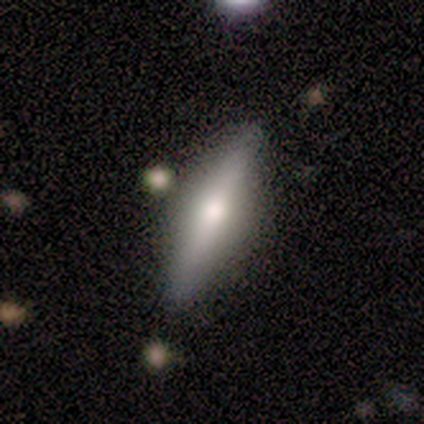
Smooth or featured?
  - featured or disk: 82% *
  - smooth: 18%
  - star or artifact: 0%
Edge-on disk?
  - yes: 89% *
  - no: 11%
Edge-on bulge?
  - rounded: 100% *
  - boxy: 0%
  - none: 0%
Merging?
  - none: 100% *
  - minor disturbance: 0%
  - major disturbance: 0%
  - merger: 0%